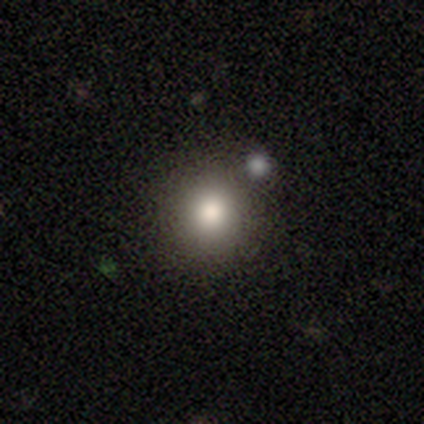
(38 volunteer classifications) Overall: smooth (82%). How rounded: round (90%). Merging: none (88%).